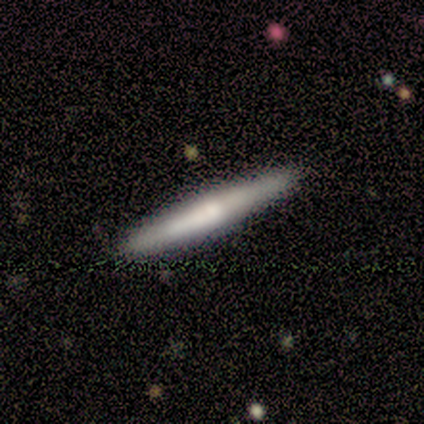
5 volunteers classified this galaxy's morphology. Smooth or featured? featured or disk (60%)
Edge-on disk? yes (100%)
Edge-on bulge? rounded (67%)
Merging? none (100%)